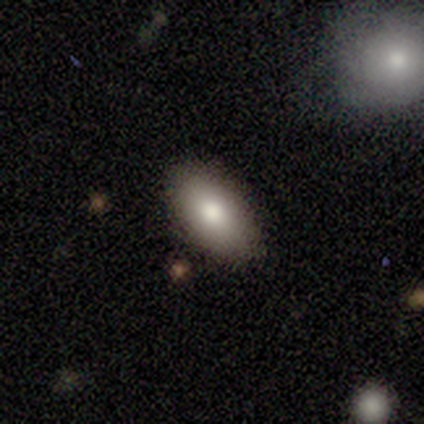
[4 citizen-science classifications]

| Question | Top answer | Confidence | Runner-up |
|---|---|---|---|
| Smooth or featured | smooth | 75% | featured or disk (25%) |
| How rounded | in between | 67% | round (33%) |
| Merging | none | 50% | major disturbance (25%) |